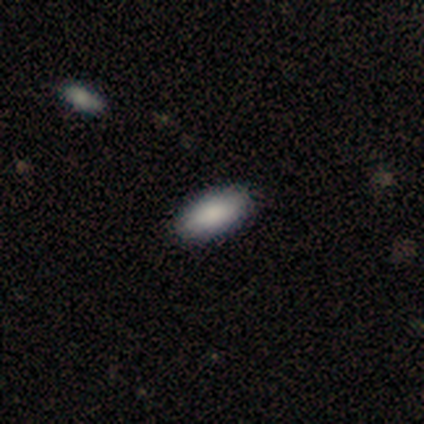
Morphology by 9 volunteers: A smooth galaxy with no disk features (100%) that is in between round and cigar-shaped (89%). Merging: none (100%).